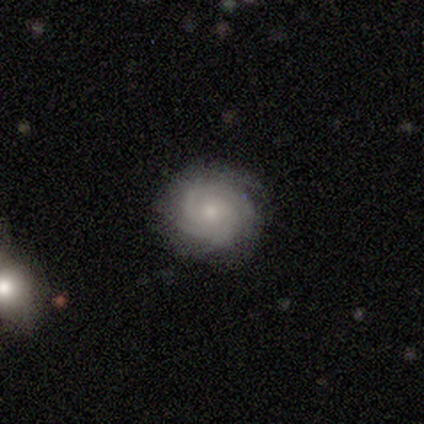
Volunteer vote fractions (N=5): Volunteers were most divided on "spiral arm count": 4: 40%, 2: 20%, 3: 20%, can't tell: 20%, 1: 0%, more than 4: 0%. More confident: smooth or featured — featured or disk (100%); edge-on disk — no (100%); bar — no (100%); spiral arms — yes (100%); spiral winding — tight (100%); bulge size — small (80%); merging — none (80%).